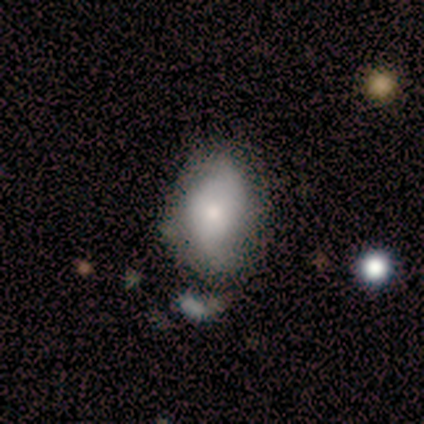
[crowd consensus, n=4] smooth 75%, featured or disk 25%, star or artifact 0%. Down the decision tree: how rounded — in between (67%); merging — none (50%, tied with minor disturbance).